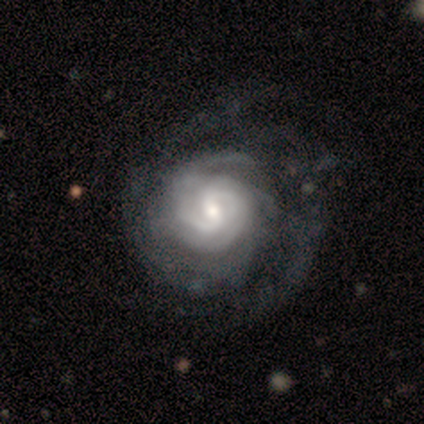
Q: Smooth or featured?
A: featured or disk (75%); runner-up: smooth (25%)
Q: Edge-on disk?
A: no (100%)
Q: Bar?
A: no (67%); runner-up: strong (33%)
Q: Spiral arms?
A: yes (100%)
Q: Spiral winding?
A: medium (100%)
Q: Spiral arm count?
A: 2 (67%); runner-up: can't tell (33%)
Q: Bulge size?
A: small (67%); runner-up: large (33%)
Q: Merging?
A: none (75%); runner-up: major disturbance (25%)